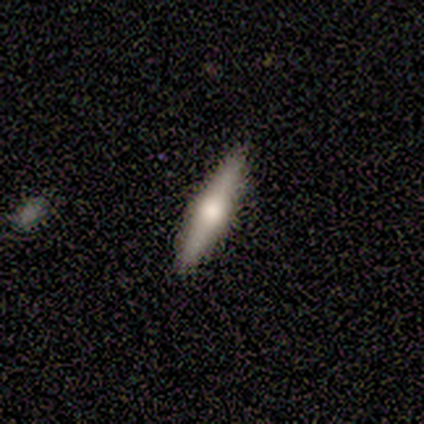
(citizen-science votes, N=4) Q: Smooth or featured?
A: featured or disk (100%)
Q: Edge-on disk?
A: yes (75%); runner-up: no (25%)
Q: Edge-on bulge?
A: rounded (100%)
Q: Merging?
A: none (75%); runner-up: major disturbance (25%)